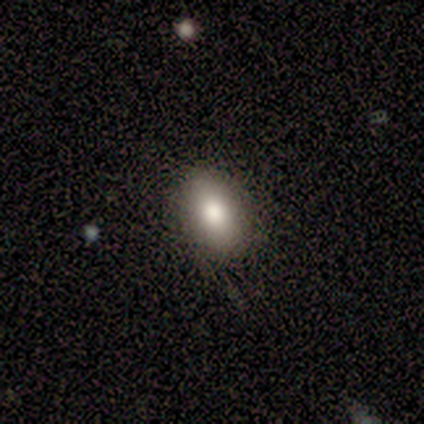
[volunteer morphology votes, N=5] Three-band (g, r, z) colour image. It shows a smooth galaxy with no disk features (80%) that is in between round and cigar-shaped (75%). Merging: none (80%).